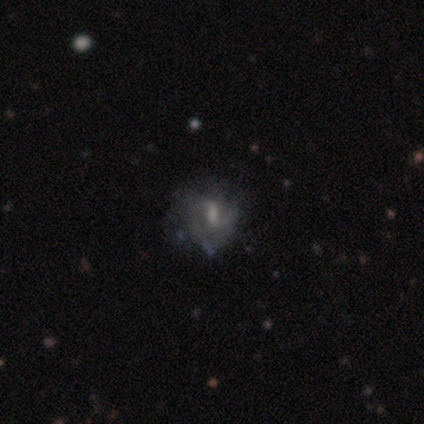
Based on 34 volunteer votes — Overall: featured or disk (71%). Edge-on disk: no (92%). Bar: weak (68%). Spiral arms: yes (50%, tied with no). Spiral arm count: can't tell (45%; 2 27%). Spiral winding: medium (45%; loose 36%). Bulge size: moderate (45%; small 27%). Merging: none (64%; minor disturbance 29%).